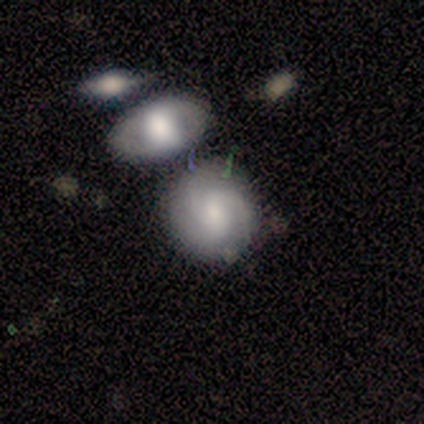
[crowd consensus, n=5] Smooth or featured? 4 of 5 (80%) said featured or disk. Edge-on disk? 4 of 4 (100%) said no. Bar? 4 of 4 (100%) said weak. Spiral arms? 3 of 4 (75%) said yes. Spiral winding? 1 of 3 (33%, tied with medium and loose) said tight. Spiral arm count? 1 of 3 (33%, tied with 3 and can't tell) said 2. Bulge size? 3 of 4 (75%) said moderate. Merging? 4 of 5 (80%) said none.